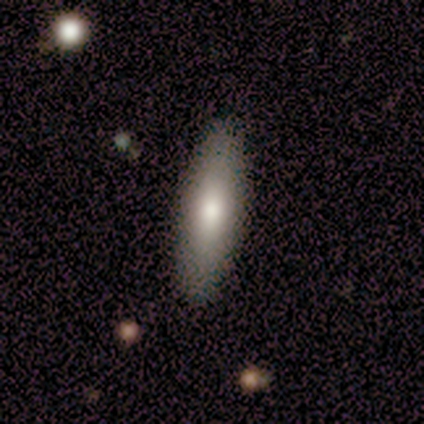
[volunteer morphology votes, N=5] Smooth or featured: smooth — 100%
How rounded: cigar-shaped — 100%
Merging: none — 100%